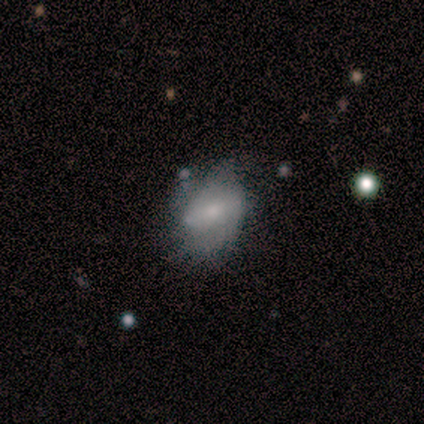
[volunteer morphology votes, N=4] smooth-or-featured: featured or disk: 50% (tied) | star or artifact: 50% (tied) | smooth: 0%
  disk-edge-on: no: 100% | yes: 0%
    bar: strong: 50% (tied) | no: 50% (tied) | weak: 0%
    has-spiral-arms: yes: 50% (tied) | no: 50% (tied)
      spiral-winding: loose: 100% | tight: 0% | medium: 0%
      spiral-arm-count: 2: 100% | 1: 0% | 3: 0% | 4: 0% | more than 4: 0% | can't tell: 0%
    bulge-size: moderate: 50% (tied) | small: 50% (tied) | dominant: 0% | large: 0% | none: 0%
  merging: minor disturbance: 50% (tied) | major disturbance: 50% (tied) | none: 0% | merger: 0%